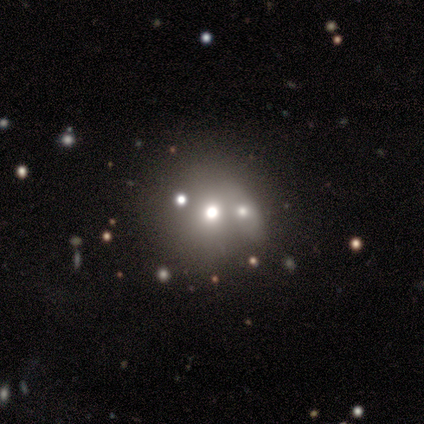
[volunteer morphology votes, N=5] smooth_or_featured: smooth (p=0.60) [alt: featured or disk p=0.20]
how_rounded: round (p=1.00)
merging: none (p=0.75) [alt: merger p=0.25]